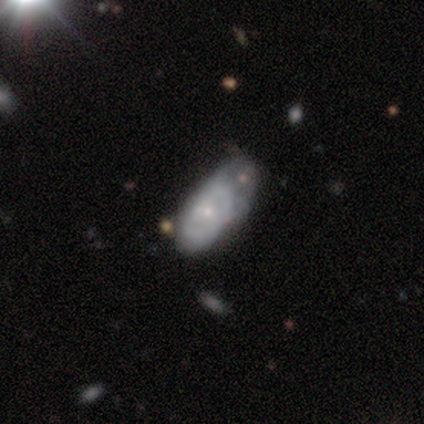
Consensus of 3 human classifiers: A star or artifact, not a galaxy (67%).